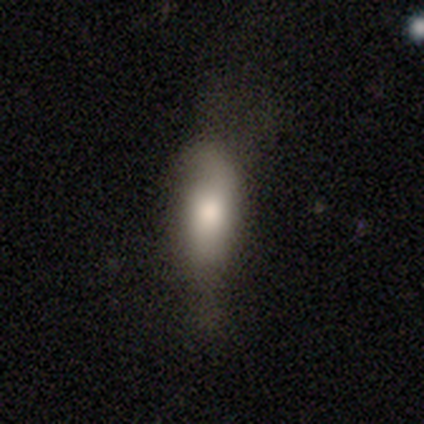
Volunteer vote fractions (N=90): Q: Smooth or featured?
A: smooth (69%); runner-up: featured or disk (22%)
Q: How rounded?
A: in between (61%); runner-up: cigar-shaped (37%)
Q: Merging?
A: none (45%); runner-up: minor disturbance (29%)